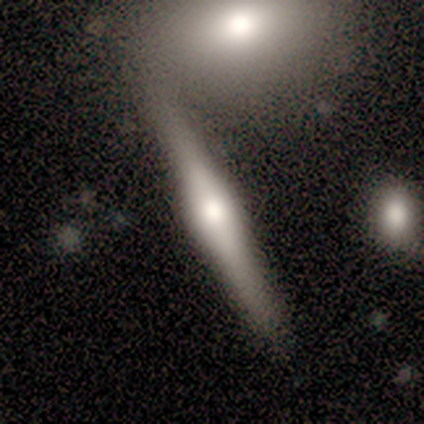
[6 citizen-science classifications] A featured or disk galaxy (100%) viewed edge-on (100%) with a rounded central bulge (83%). Merging: merger (67%).